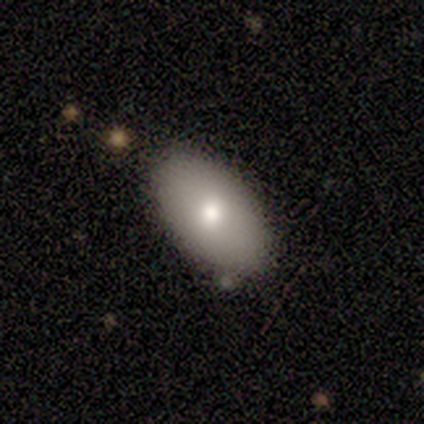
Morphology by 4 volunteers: Overall: smooth (75%). How rounded: in between (100%). Merging: none (75%).